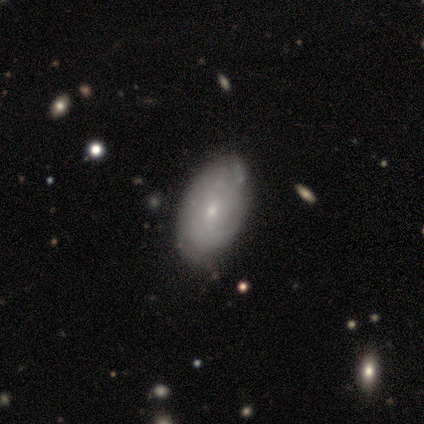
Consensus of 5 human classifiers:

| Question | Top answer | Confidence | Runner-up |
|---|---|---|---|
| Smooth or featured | featured or disk | 60% | smooth (40%) |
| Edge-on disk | no | 100% | — |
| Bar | no | 100% | — |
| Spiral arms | yes | 67% | no (33%) |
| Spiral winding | medium | 100% | — |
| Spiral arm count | can't tell | 100% | — |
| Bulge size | small | 100% | — |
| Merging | none | 80% | minor disturbance (20%) |